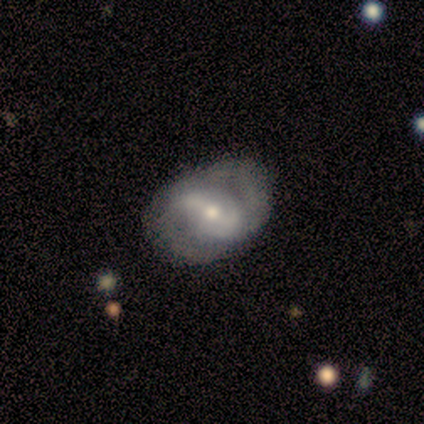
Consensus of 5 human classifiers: Smooth or featured?
  - featured or disk: 80% *
  - smooth: 20%
  - star or artifact: 0%
Edge-on disk?
  - no: 75% *
  - yes: 25%
Bar?
  - weak: 67% *
  - strong: 33%
  - no: 0%
Spiral arms?
  - yes: 100% *
  - no: 0%
Spiral winding?
  - medium: 67% *
  - tight: 33%
  - loose: 0%
Spiral arm count?
  - 1: 33% * (tied)
  - 2: 33% * (tied)
  - 3: 33% * (tied)
  - 4: 0%
  - more than 4: 0%
  - can't tell: 0%
Bulge size?
  - moderate: 100% *
  - dominant: 0%
  - large: 0%
  - small: 0%
  - none: 0%
Merging?
  - none: 80% *
  - minor disturbance: 20%
  - major disturbance: 0%
  - merger: 0%